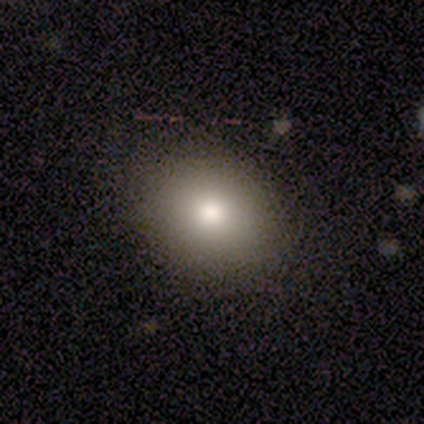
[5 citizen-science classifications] Smooth or featured?
  - smooth: 60% *
  - star or artifact: 40%
  - featured or disk: 0%
How rounded?
  - round: 67% *
  - in between: 33%
  - cigar-shaped: 0%
Merging?
  - none: 100% *
  - minor disturbance: 0%
  - major disturbance: 0%
  - merger: 0%